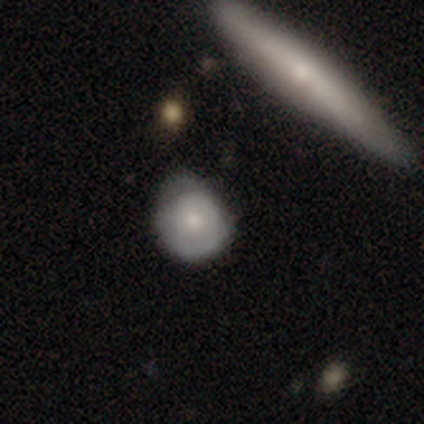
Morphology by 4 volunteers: Overall: smooth (100%). How rounded: round (75%). Merging: minor disturbance (50%; none 25%).